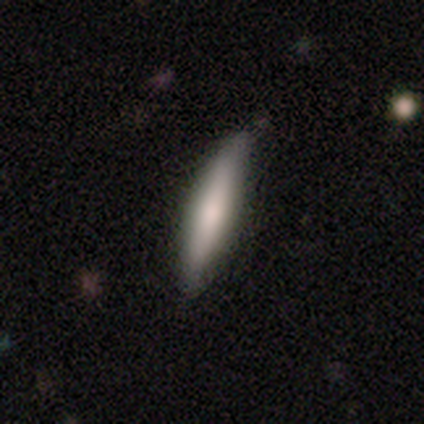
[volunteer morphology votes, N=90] smooth_or_featured: smooth (p=0.70) [alt: featured or disk p=0.21]
how_rounded: cigar-shaped (p=0.94) [alt: in between p=0.06]
merging: none (p=0.71) [alt: minor disturbance p=0.24]